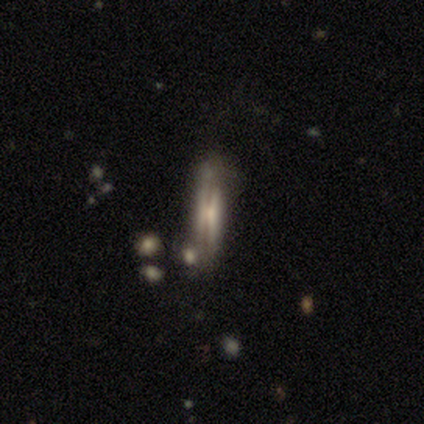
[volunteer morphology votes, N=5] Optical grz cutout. It shows a featured or disk galaxy (40%, tied with star or artifact) viewed edge-on (100%) with a boxy central bulge (50%, tied with rounded). Merging: none (33%, tied with minor disturbance and major disturbance).